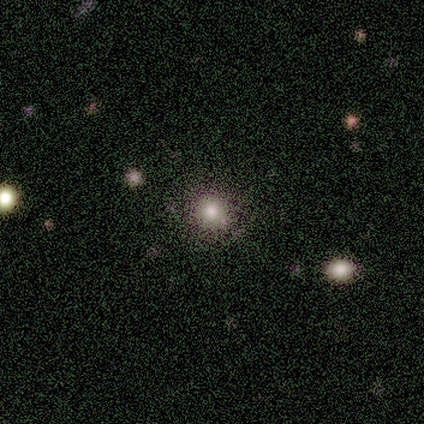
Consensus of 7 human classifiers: Morphology: type=smooth (86%); roundness=round (100%); merging=none (86%).